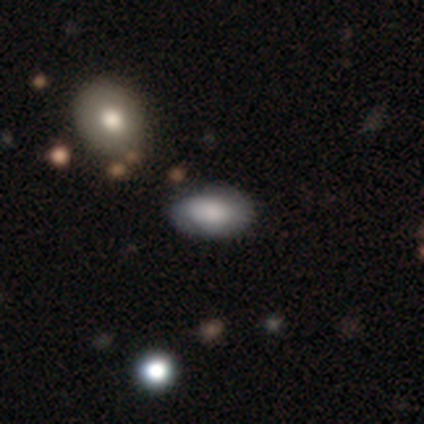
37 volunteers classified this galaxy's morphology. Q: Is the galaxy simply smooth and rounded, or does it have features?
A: smooth — 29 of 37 (78%).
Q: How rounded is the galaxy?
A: in between — 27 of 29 (93%).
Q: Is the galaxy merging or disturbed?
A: none — 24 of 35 (69%).